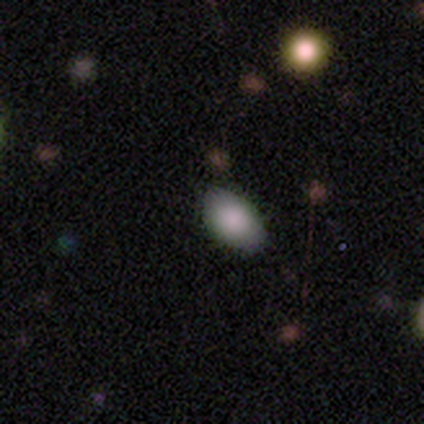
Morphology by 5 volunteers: This is clearly a smooth galaxy (80%). How rounded: clearly in between (100%). Merging: likely none (75%).